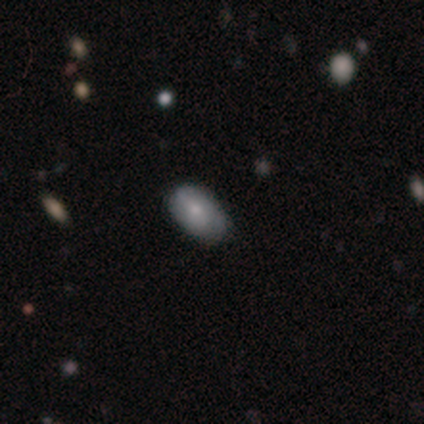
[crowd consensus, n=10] Overall: smooth (80%). How rounded: in between (100%). Merging: none (70%; minor disturbance 30%).